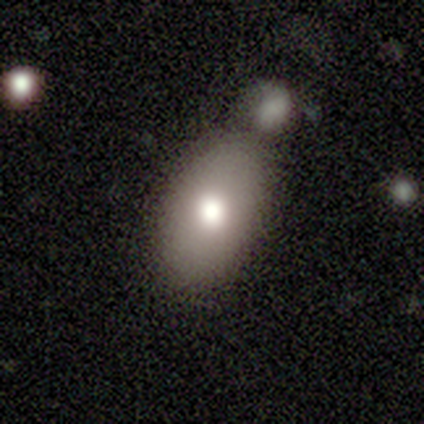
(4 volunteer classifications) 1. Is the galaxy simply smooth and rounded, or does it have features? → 75% smooth, 25% featured or disk, 0% star or artifact.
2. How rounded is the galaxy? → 100% in between, 0% round, 0% cigar-shaped.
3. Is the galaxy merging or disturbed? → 75% merger, 25% none, 0% minor disturbance, 0% major disturbance.